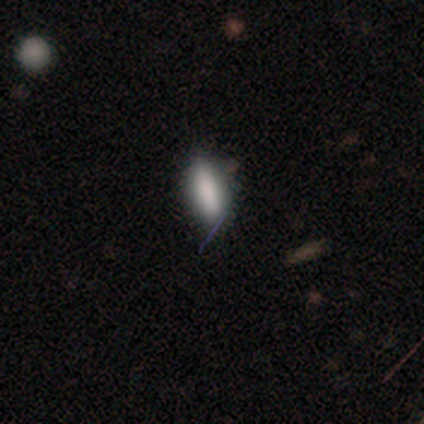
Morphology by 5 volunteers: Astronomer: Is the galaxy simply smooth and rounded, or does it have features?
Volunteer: smooth — 80%.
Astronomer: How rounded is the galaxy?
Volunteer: in between — 50%, tied with cigar-shaped at 50%.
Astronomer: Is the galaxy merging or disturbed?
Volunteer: none — 80%.